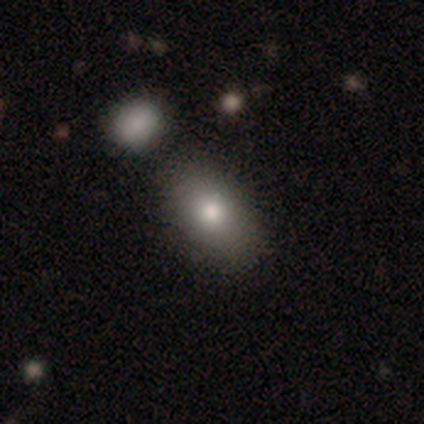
Q: Smooth or featured?
A: smooth (80%); runner-up: featured or disk (20%)
Q: How rounded?
A: in between (100%)
Q: Merging?
A: none (100%)